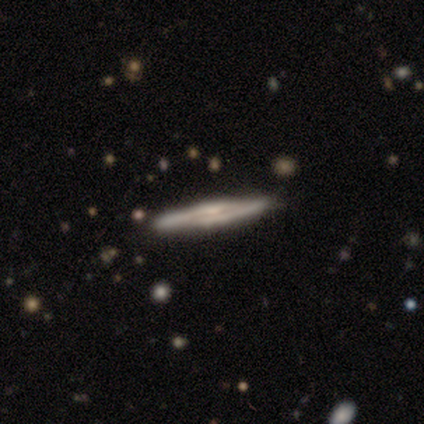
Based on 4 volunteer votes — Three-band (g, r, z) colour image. It shows a featured or disk galaxy (100%) viewed edge-on (100%) with a rounded central bulge (75%). Merging: none (75%).